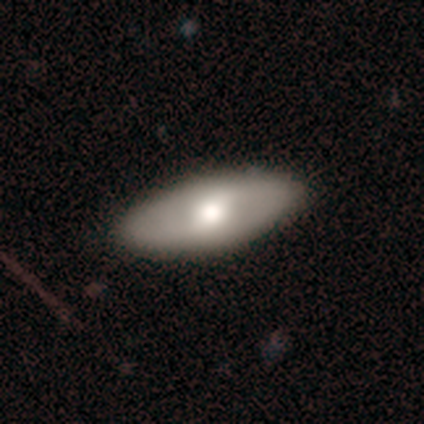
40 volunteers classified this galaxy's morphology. Overall: smooth (52%; featured or disk 48%). How rounded: in between (90%). Merging: none (72%).